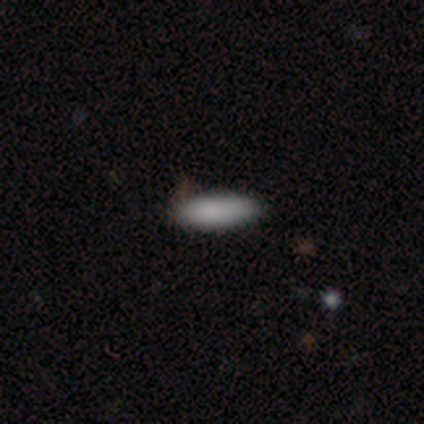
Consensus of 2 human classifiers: This is clearly a smooth galaxy (100%). How rounded: clearly in between (100%). Merging: clearly none (100%).